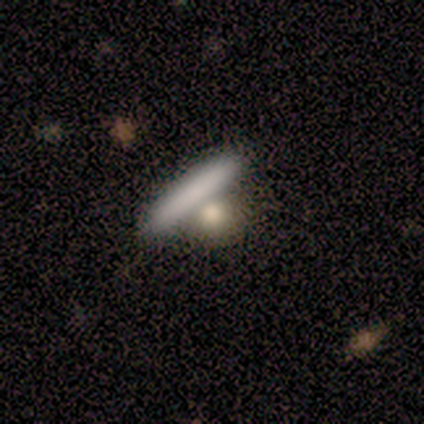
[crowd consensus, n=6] smooth-or-featured: smooth: 67% | star or artifact: 33% | featured or disk: 0%
  how-rounded: cigar-shaped: 75% | round: 25% | in between: 0%
  merging: none: 50% | major disturbance: 25% | merger: 25% | minor disturbance: 0%